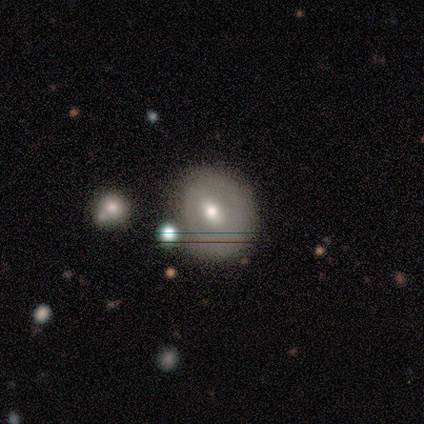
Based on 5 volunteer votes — Q: Smooth or featured?
A: smooth (40%); tied with: featured or disk (40%)
Q: How rounded?
A: round (100%)
Q: Merging?
A: none (100%)